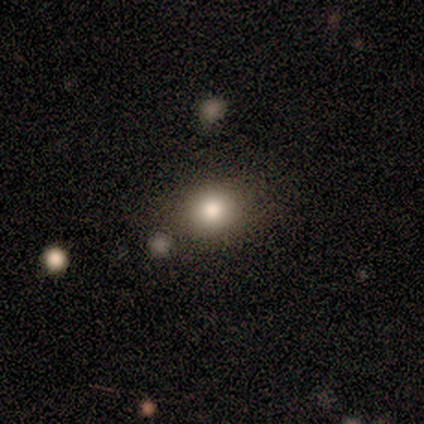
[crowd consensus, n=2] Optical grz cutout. It shows a smooth galaxy with no disk features (50%, tied with star or artifact) that is round (100%). Merging: none (100%).